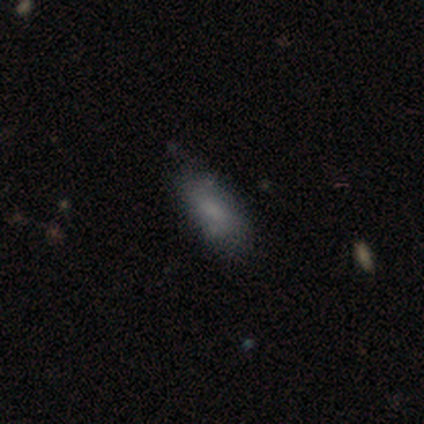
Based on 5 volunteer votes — A smooth galaxy with no disk features (80%) that is in between round and cigar-shaped (75%). Merging: none (80%).